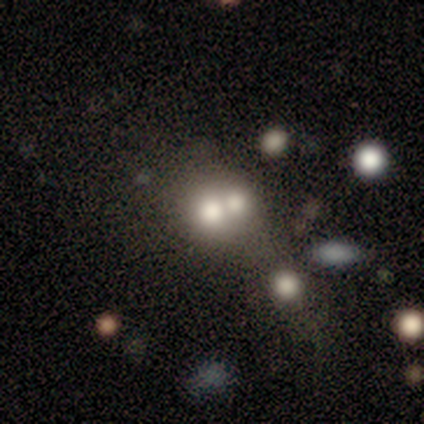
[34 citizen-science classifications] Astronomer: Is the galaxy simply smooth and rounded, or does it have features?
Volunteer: smooth — 68%.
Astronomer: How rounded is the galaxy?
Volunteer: round — 78%.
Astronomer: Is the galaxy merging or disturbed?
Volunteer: merger — 58%.